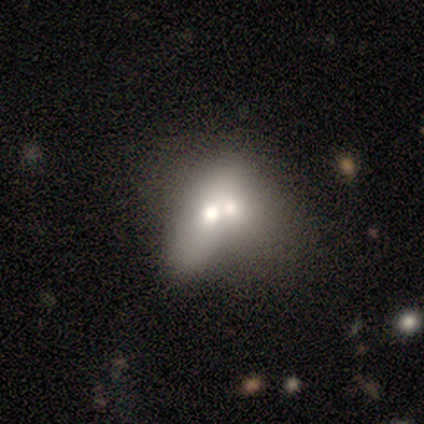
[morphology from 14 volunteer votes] smooth_or_featured: smooth (p=0.50) [alt: featured or disk p=0.43]
how_rounded: in between (p=0.71) [alt: round p=0.29]
merging: merger (p=0.62) [alt: minor disturbance p=0.23]